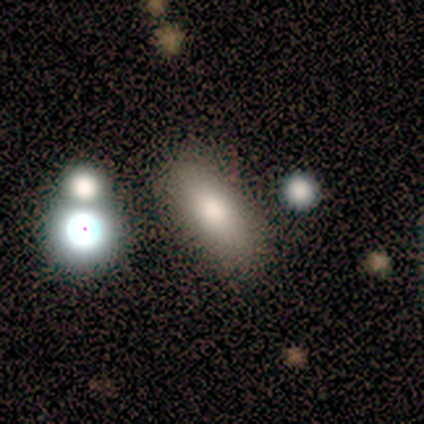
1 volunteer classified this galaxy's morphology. Overall: featured or disk (100%). Edge-on disk: no (100%). Bar: no (100%). Spiral arms: no (100%). Bulge size: moderate (100%). Merging: minor disturbance (100%).